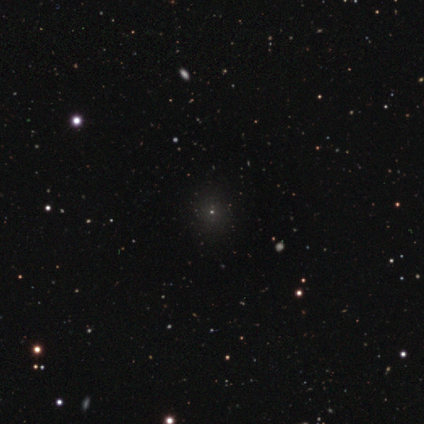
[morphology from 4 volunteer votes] This is likely a star or artifact rather than a galaxy (75%).